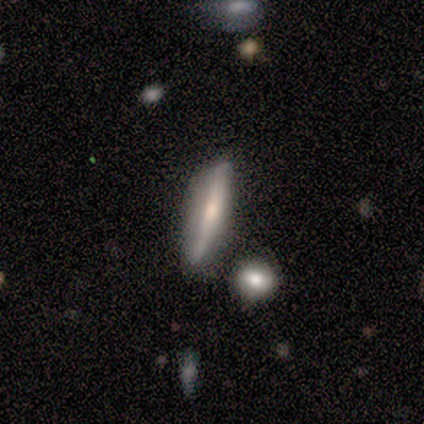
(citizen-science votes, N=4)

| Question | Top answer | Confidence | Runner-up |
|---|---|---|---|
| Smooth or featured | smooth | 100% | — |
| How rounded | cigar-shaped | 100% | — |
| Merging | none | 50% | minor disturbance (25%) |